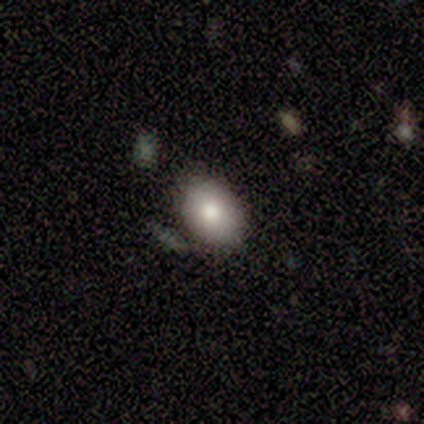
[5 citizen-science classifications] A smooth galaxy with no disk features (80%) that is in between round and cigar-shaped (100%).

Vote fractions:
- Smooth or featured? smooth: 80% / star or artifact: 20% / featured or disk: 0%
- How rounded? in between: 100% / round: 0% / cigar-shaped: 0%
- Merging? none: 100% / minor disturbance: 0% / major disturbance: 0% / merger: 0%